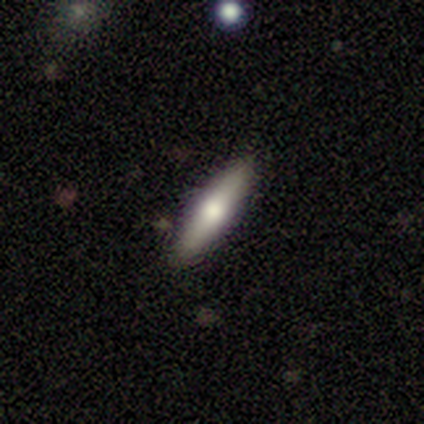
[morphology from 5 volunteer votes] This appears to be a featured or disk galaxy (60%) viewed edge-on (100%) with a rounded central bulge (100%). Merging: none (100%).